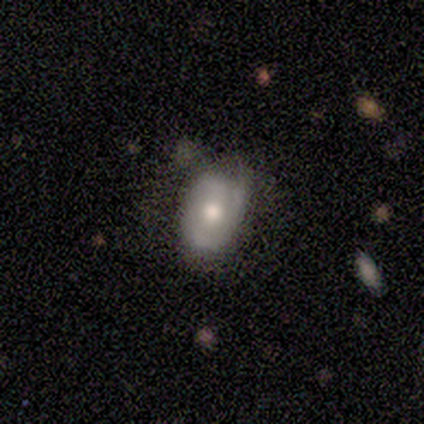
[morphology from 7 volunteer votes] featured or disk 57%, smooth 43%, star or artifact 0%. Down the decision tree: edge-on disk — no (100%); bar — no (50%); spiral arms — yes (50%, tied with no); spiral arm count — 2 (100%); spiral winding — medium (100%); bulge size — moderate (75%); merging — none (57%).